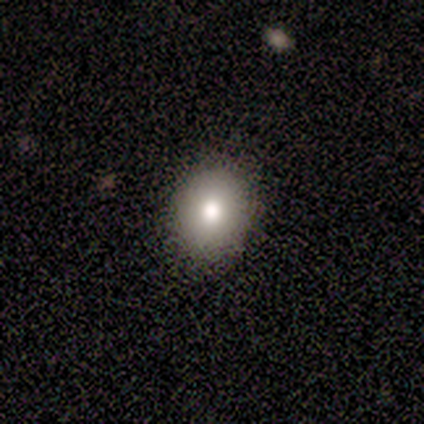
smooth 60%, featured or disk 20%, star or artifact 20%. Down the decision tree: how rounded — round (67%); merging — none (100%).